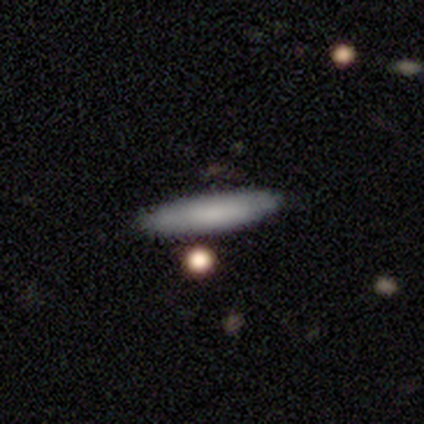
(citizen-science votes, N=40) Smooth or featured? smooth (72%)
How rounded? cigar-shaped (79%)
Merging? none (89%)